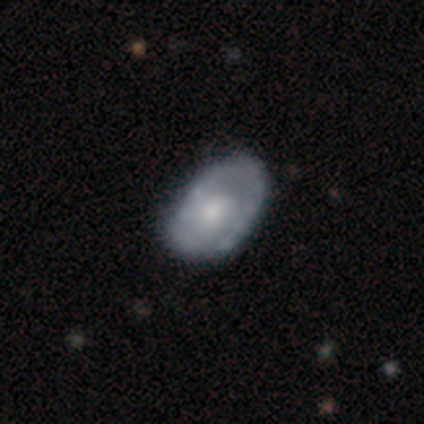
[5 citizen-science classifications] This is likely a featured or disk galaxy (60%). It is clearly not viewed edge-on (100%). Bar: clearly no (100%). Spiral arm pattern: likely yes (67%). Spiral arm count: possibly 1 (50%, tied with 2). Spiral winding: clearly medium (100%). Central bulge: clearly moderate (100%). Merging: clearly none (100%).